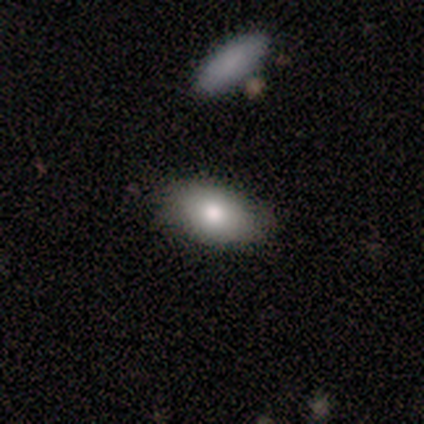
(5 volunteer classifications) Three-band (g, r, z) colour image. It shows a smooth galaxy with no disk features (80%) that is in between round and cigar-shaped (100%). Merging: none (100%).